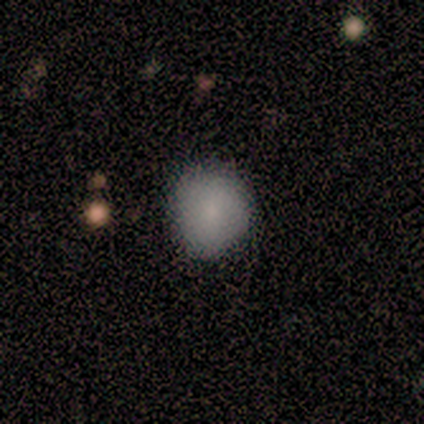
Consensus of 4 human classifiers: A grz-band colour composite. It shows a smooth galaxy with no disk features (75%) that is round (67%). Merging: none (50%, tied with minor disturbance).